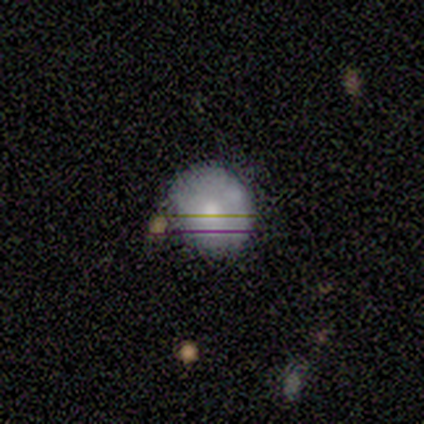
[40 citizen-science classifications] Smooth or featured?
  - smooth: 65% *
  - featured or disk: 22%
  - star or artifact: 12%
How rounded?
  - round: 81% *
  - in between: 19%
  - cigar-shaped: 0%
Merging?
  - none: 80% *
  - minor disturbance: 20%
  - major disturbance: 0%
  - merger: 0%